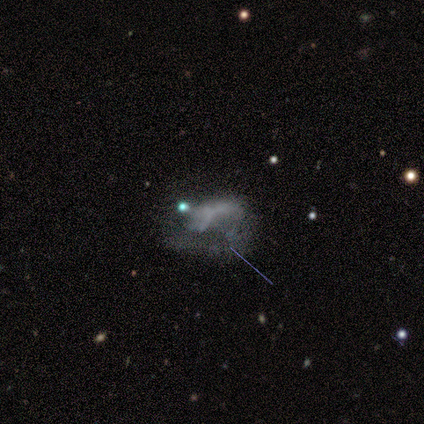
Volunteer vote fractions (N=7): Smooth or featured: featured or disk — 57% (star or artifact — 29%)
Edge-on disk: no — 100%
Bar: no — 100%
Spiral arms: no — 100%
Bulge size: none — 100%
Merging: major disturbance — 60% (merger — 40%)